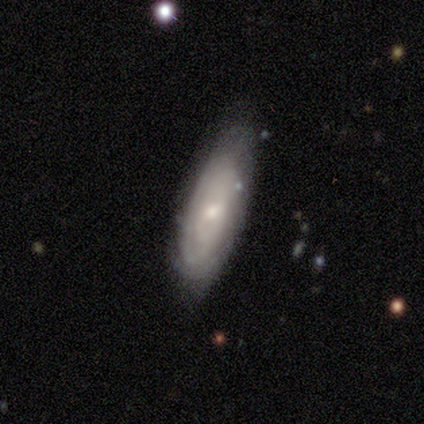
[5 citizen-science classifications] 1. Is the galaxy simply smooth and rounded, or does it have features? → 80% smooth, 20% featured or disk, 0% star or artifact.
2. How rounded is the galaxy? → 100% in between, 0% round, 0% cigar-shaped.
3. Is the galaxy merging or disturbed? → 80% none, 20% major disturbance, 0% minor disturbance, 0% merger.